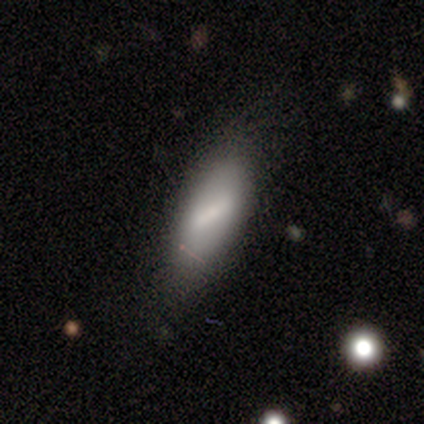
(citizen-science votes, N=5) A featured or disk galaxy (60%) with a strong bar (50%, tied with weak), no spiral arms (100%) and a small central bulge (100%). Merging: none (80%).